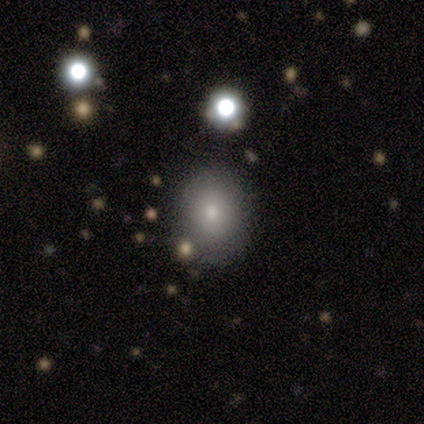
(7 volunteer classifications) Smooth or featured?
  - smooth: 71% *
  - featured or disk: 29%
  - star or artifact: 0%
How rounded?
  - in between: 60% *
  - round: 40%
  - cigar-shaped: 0%
Merging?
  - none: 86% *
  - minor disturbance: 14%
  - major disturbance: 0%
  - merger: 0%